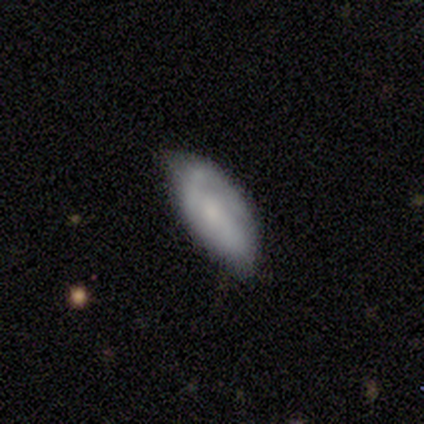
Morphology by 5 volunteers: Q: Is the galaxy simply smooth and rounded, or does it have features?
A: featured or disk — 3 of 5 (60%).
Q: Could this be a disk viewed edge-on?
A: no — 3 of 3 (100%).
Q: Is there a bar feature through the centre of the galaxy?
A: no — 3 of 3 (100%).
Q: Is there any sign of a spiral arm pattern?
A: yes — 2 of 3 (67%).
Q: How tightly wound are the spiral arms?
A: loose — 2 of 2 (100%).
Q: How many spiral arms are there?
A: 2 — 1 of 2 (50%, tied with 3).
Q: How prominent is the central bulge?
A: moderate — 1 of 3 (33%, tied with small and none).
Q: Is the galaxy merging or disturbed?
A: none — 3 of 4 (75%).